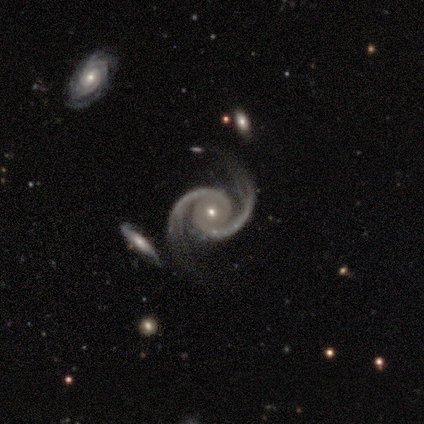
Smooth or featured? featured or disk (100%)
Edge-on disk? no (100%)
Bar? no (60%)
Spiral arms? yes (100%)
Spiral winding? tight (40%, tied with medium)
Spiral arm count? 2 (100%)
Bulge size? small (80%)
Merging? none (60%)